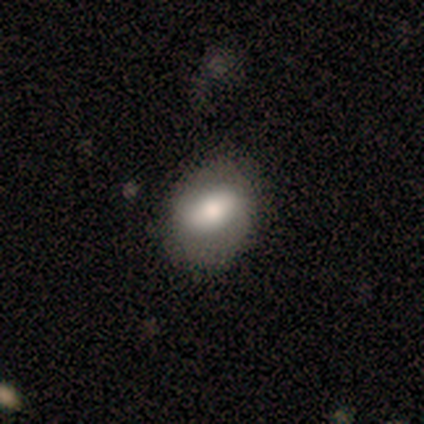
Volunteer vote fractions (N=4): This appears to be a smooth galaxy with no disk features (75%) that is in between round and cigar-shaped (67%). Merging: none (100%).